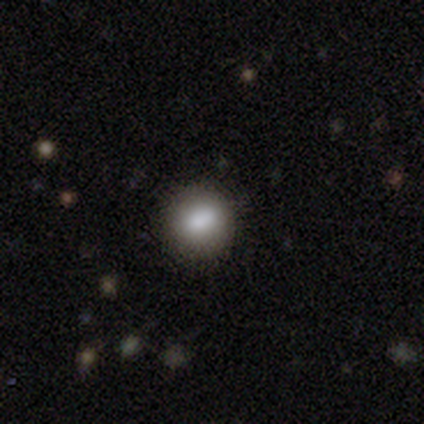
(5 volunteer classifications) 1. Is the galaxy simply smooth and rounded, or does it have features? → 80% smooth, 20% featured or disk, 0% star or artifact.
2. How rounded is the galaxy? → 100% round, 0% in between, 0% cigar-shaped.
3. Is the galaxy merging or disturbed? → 100% none, 0% minor disturbance, 0% major disturbance, 0% merger.